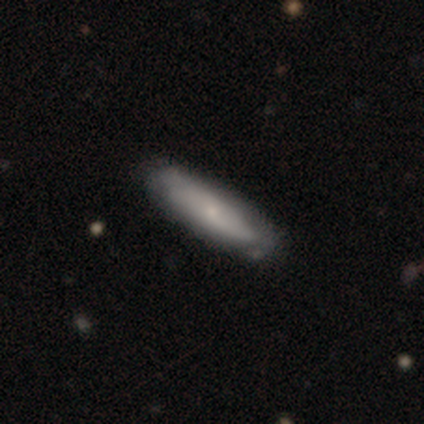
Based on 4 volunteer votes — This is clearly a smooth galaxy (100%). How rounded: likely cigar-shaped (75%). Merging: likely none (75%).